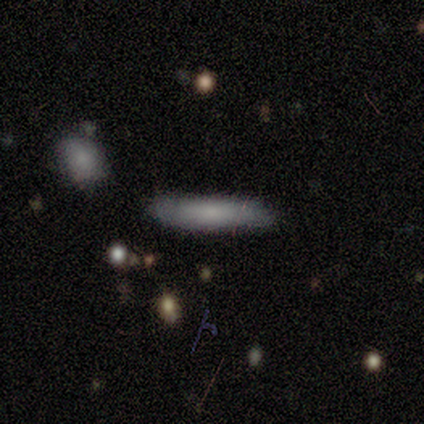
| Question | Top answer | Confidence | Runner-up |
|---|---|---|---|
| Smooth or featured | smooth | 71% | featured or disk (29%) |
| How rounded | cigar-shaped | 80% | in between (20%) |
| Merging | none | 71% | minor disturbance (29%) |